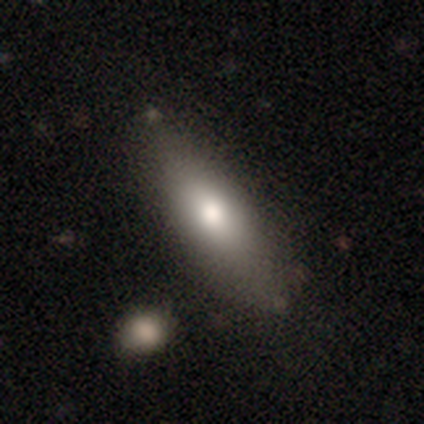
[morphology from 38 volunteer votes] Q: Smooth or featured?
A: smooth (79%); runner-up: featured or disk (13%)
Q: How rounded?
A: in between (67%); runner-up: cigar-shaped (33%)
Q: Merging?
A: none (66%); runner-up: minor disturbance (23%)